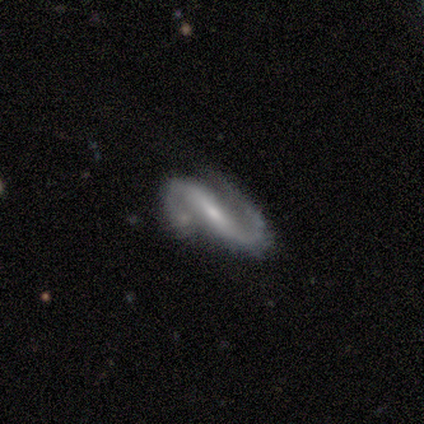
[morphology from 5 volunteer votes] Q: Smooth or featured?
A: featured or disk (100%)
Q: Edge-on disk?
A: no (80%); runner-up: yes (20%)
Q: Bar?
A: strong (50%); tied with: weak (50%)
Q: Spiral arms?
A: yes (100%)
Q: Spiral winding?
A: loose (50%); runner-up: tight (25%)
Q: Spiral arm count?
A: 2 (100%)
Q: Bulge size?
A: small (75%); runner-up: moderate (25%)
Q: Merging?
A: none (60%); runner-up: minor disturbance (40%)